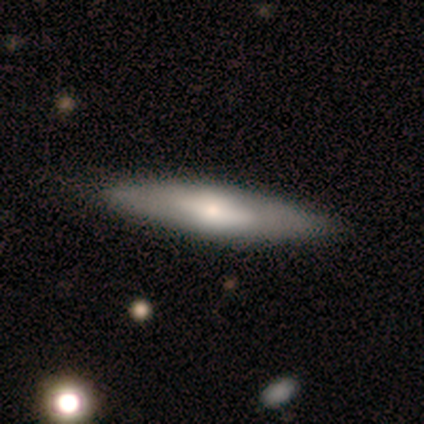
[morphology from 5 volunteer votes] A smooth galaxy with no disk features (80%) that is cigar-shaped (75%).

Vote fractions:
- Smooth or featured? smooth: 80% / featured or disk: 20% / star or artifact: 0%
- How rounded? cigar-shaped: 75% / in between: 25% / round: 0%
- Merging? none: 60% / minor disturbance: 20% / merger: 20% / major disturbance: 0%